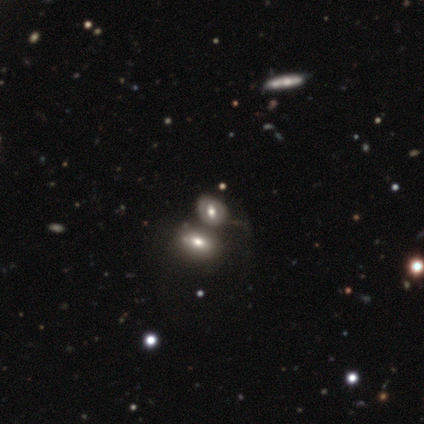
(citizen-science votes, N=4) Smooth or featured? smooth (50%)
How rounded? in between (50%, tied with cigar-shaped)
Merging? merger (67%)